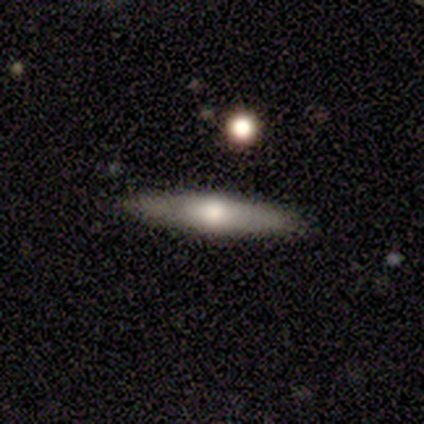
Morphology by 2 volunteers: featured or disk 100%, smooth 0%, star or artifact 0%. Down the decision tree: edge-on disk — yes (100%); edge-on bulge — rounded (100%); merging — none (50%, tied with major disturbance).